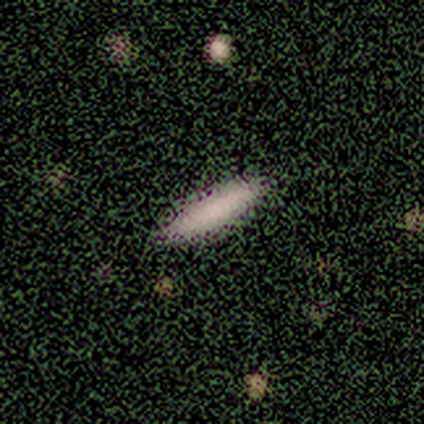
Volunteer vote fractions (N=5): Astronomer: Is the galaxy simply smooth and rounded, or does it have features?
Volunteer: smooth — 80%.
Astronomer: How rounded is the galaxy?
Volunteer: cigar-shaped — 75%.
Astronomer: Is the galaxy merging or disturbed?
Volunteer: none — 100%.